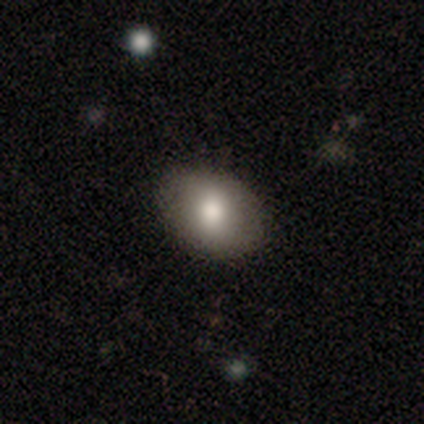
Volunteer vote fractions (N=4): This appears to be a smooth galaxy with no disk features (75%) that is in between round and cigar-shaped (67%). Merging: none (100%).